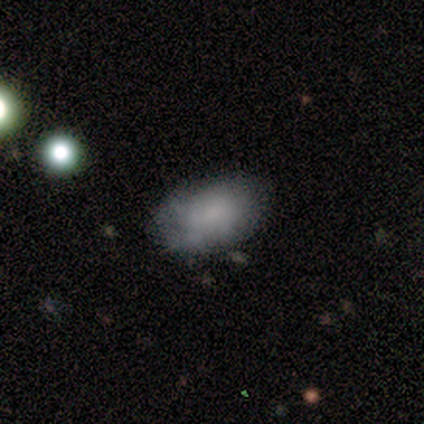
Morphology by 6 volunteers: type=smooth (100%); roundness=in between (67%); merging=none (100%).